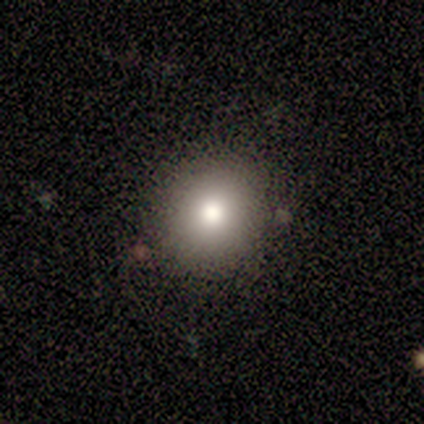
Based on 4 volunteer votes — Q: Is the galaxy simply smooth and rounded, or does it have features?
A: smooth — 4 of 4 (100%).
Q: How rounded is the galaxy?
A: round — 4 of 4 (100%).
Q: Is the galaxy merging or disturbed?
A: none — 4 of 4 (100%).